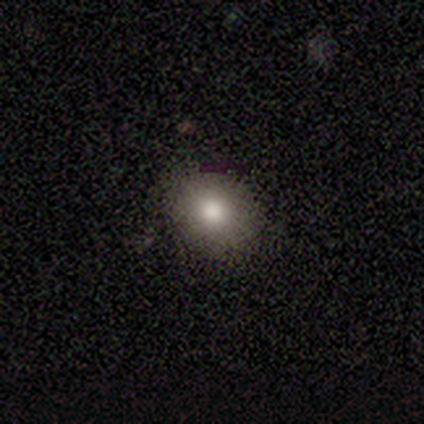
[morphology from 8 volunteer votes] Smooth or featured? smooth (50%)
How rounded? round (75%)
Merging? none (100%)